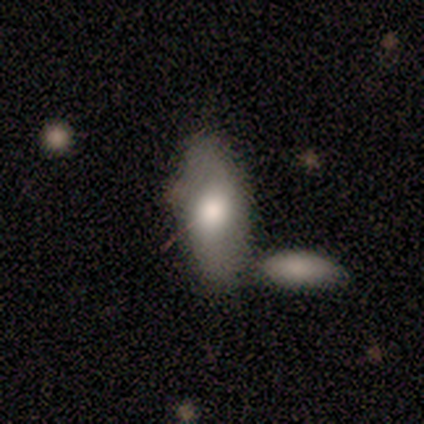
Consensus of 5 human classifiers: Smooth or featured? 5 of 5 (100%) said smooth. How rounded? 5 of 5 (100%) said in between. Merging? 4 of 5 (80%) said none.